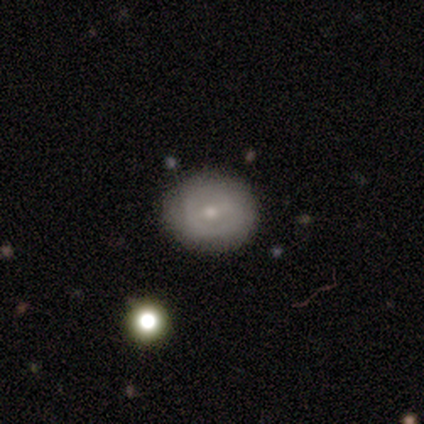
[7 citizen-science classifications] Smooth or featured: smooth — 43% (tied with featured or disk — 43%)
How rounded: round — 67% (in between — 33%)
Merging: minor disturbance — 50% (none — 33%)